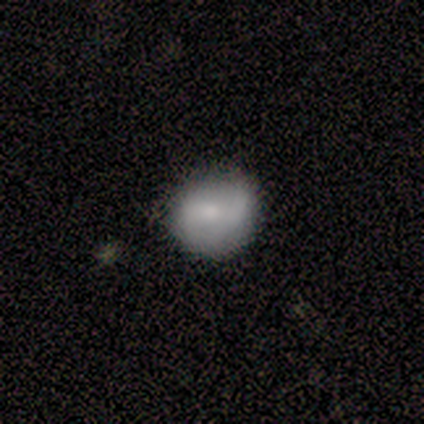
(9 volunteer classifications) Smooth or featured? smooth (56%)
How rounded? in between (60%)
Merging? none (67%)